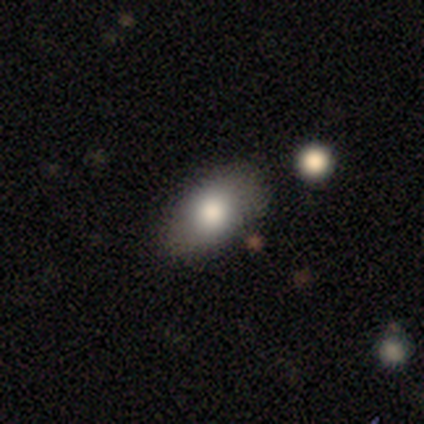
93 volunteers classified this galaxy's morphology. Smooth or featured?
  - smooth: 83% *
  - featured or disk: 14%
  - star or artifact: 3%
How rounded?
  - in between: 90% *
  - round: 9%
  - cigar-shaped: 1%
Merging?
  - none: 72% *
  - minor disturbance: 23%
  - merger: 3%
  - major disturbance: 1%